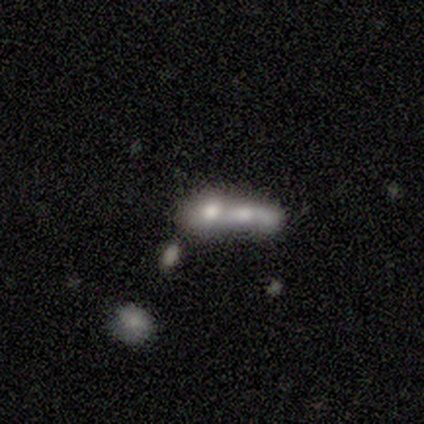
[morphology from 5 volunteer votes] Volunteers were most divided on "how rounded": in between: 75%, cigar-shaped: 25%, round: 0%. More confident: smooth or featured — smooth (80%); merging — merger (80%).